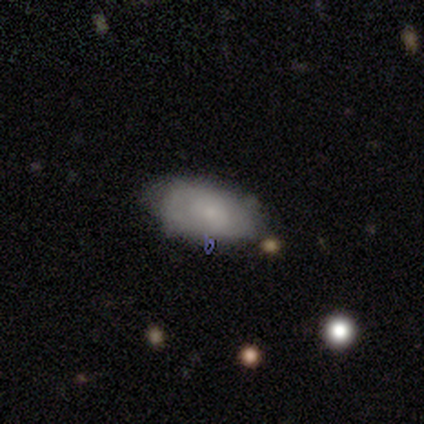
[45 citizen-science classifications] Overall: smooth (53%; featured or disk 40%). How rounded: in between (88%). Merging: none (69%).